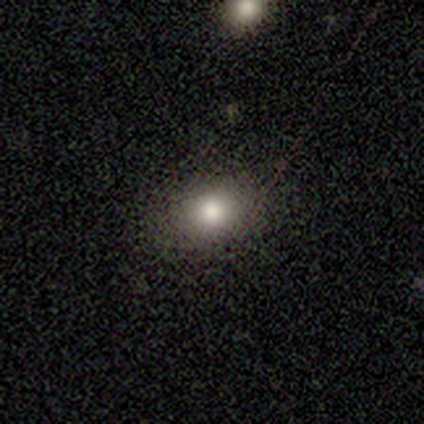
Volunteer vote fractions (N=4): This is likely a smooth galaxy (75%). How rounded: likely round (67%). Merging: clearly none (100%).